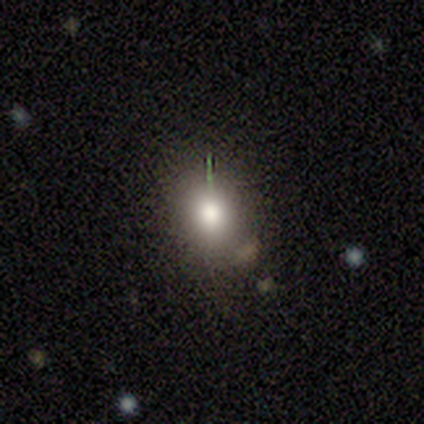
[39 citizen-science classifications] Morphology: type=smooth (64%); roundness=round (64%); merging=none (86%).